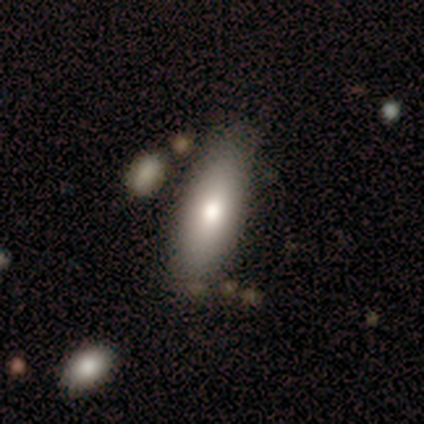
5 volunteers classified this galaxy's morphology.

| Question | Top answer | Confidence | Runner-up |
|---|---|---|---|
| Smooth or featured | smooth | 80% | featured or disk (20%) |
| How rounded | in between | 50% | tied: cigar-shaped (50%) |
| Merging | none | 60% | minor disturbance (20%) |